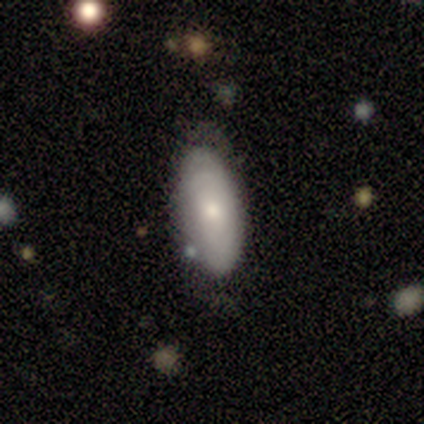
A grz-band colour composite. It shows a smooth galaxy with no disk features (61%) that is in between round and cigar-shaped (96%). Merging: none (63%).